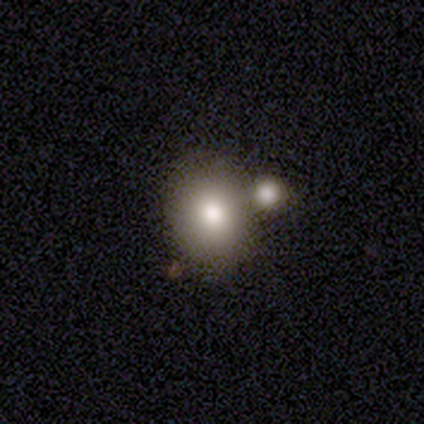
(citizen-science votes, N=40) This appears to be a smooth galaxy with no disk features (65%) that is round (58%). Merging: none (66%).